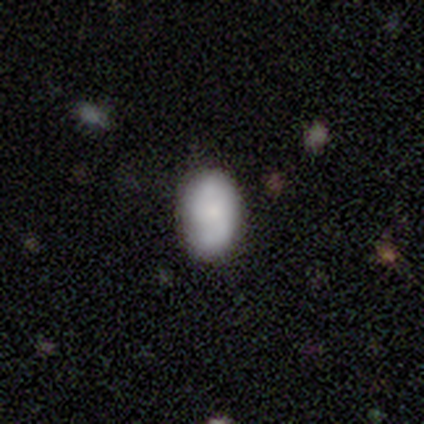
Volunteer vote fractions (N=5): This appears to be a smooth galaxy with no disk features (60%) that is in between round and cigar-shaped (100%). Merging: minor disturbance (60%).